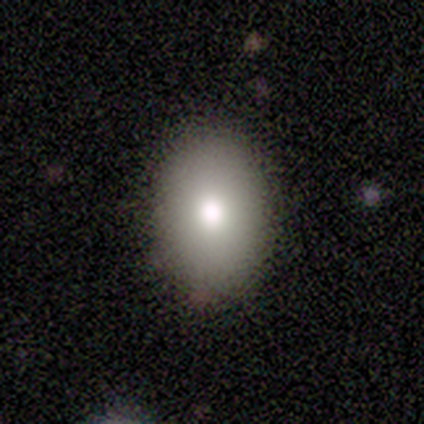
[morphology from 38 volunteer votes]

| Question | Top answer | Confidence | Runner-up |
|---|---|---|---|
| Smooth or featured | smooth | 71% | star or artifact (16%) |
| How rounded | in between | 81% | round (19%) |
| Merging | none | 94% | minor disturbance (6%) |